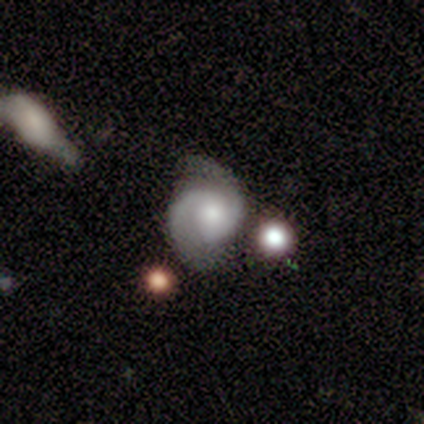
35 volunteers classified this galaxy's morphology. Smooth or featured: featured or disk — 89% (smooth — 6%)
Edge-on disk: no — 100%
Bar: no — 65% (weak — 35%)
Spiral arms: yes — 100%
Spiral winding: medium — 48% (tight — 42%)
Spiral arm count: 2 — 97% (1 — 3%)
Bulge size: small — 45% (moderate — 42%)
Merging: none — 70% (minor disturbance — 18%)